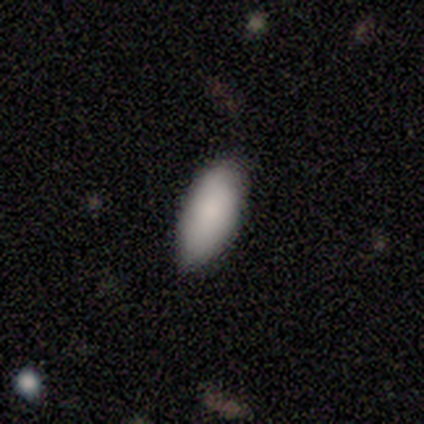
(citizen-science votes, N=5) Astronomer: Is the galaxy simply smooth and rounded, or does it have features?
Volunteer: smooth — 100%.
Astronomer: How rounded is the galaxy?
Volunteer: in between — 100%.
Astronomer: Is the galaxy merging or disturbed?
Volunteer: none — 100%.